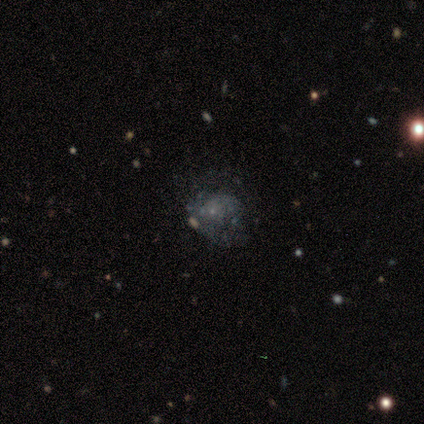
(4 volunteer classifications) Smooth or featured? 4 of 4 (100%) said featured or disk. Edge-on disk? 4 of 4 (100%) said no. Bar? 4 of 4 (100%) said no. Spiral arms? 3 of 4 (75%) said no. Bulge size? 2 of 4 (50%, tied with none) said small. Merging? 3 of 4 (75%) said none.